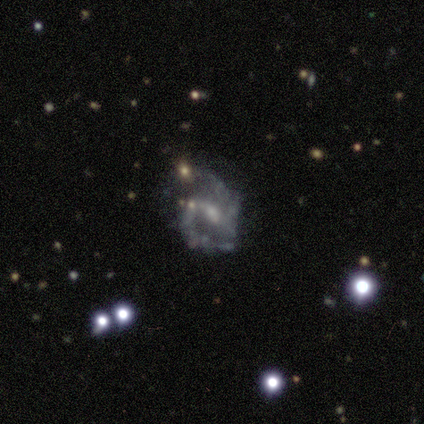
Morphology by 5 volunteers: smooth_or_featured: featured or disk (p=1.00)
disk_edge_on: no (p=1.00)
bar: no (p=0.60) [alt: weak p=0.40]
has_spiral_arms: yes (p=1.00)
spiral_winding: medium (p=0.40) [tied with: loose p=0.40]
spiral_arm_count: 2 (p=1.00)
bulge_size: small (p=0.80) [alt: none p=0.20]
merging: none (p=0.60) [alt: minor disturbance p=0.20]